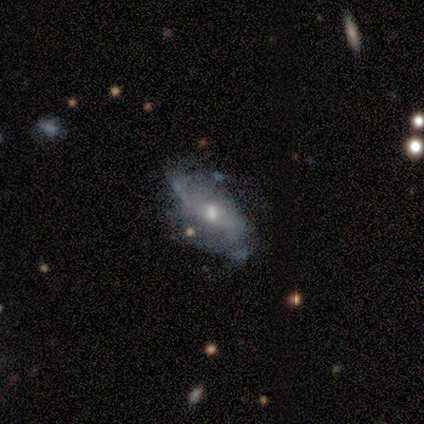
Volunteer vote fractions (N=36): smooth_or_featured: featured or disk (p=0.81) [alt: star or artifact p=0.11]
disk_edge_on: no (p=0.79) [alt: yes p=0.21]
bar: no (p=0.70) [alt: weak p=0.22]
has_spiral_arms: yes (p=0.70) [alt: no p=0.30]
spiral_winding: loose (p=0.81) [alt: medium p=0.19]
spiral_arm_count: 2 (p=0.75) [alt: can't tell p=0.19]
bulge_size: moderate (p=0.52) [alt: small p=0.39]
merging: none (p=0.59) [alt: minor disturbance p=0.31]